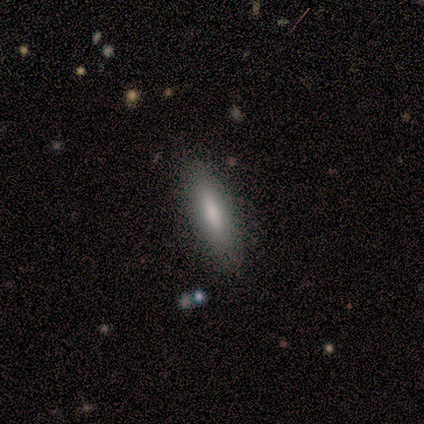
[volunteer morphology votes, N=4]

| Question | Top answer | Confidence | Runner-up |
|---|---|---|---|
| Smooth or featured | smooth | 75% | featured or disk (25%) |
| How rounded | cigar-shaped | 100% | — |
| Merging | none | 100% | — |